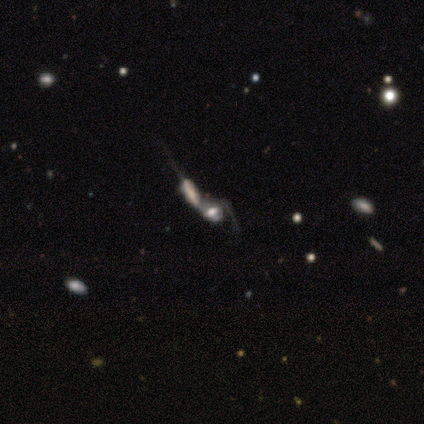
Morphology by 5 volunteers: Smooth or featured? 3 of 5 (60%) said featured or disk. Edge-on disk? 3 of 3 (100%) said no. Bar? 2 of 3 (67%) said strong. Spiral arms? 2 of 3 (67%) said no. Bulge size? 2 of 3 (67%) said large. Merging? 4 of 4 (100%) said merger.